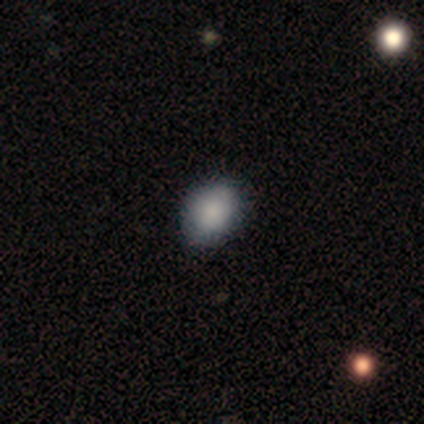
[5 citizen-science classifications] Smooth or featured? smooth (80%)
How rounded? in between (100%)
Merging? none (75%)